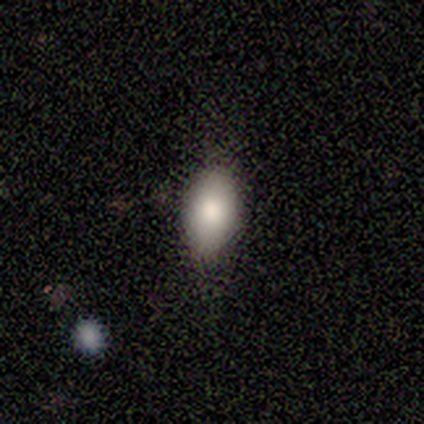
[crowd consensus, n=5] Smooth or featured? smooth (80%)
How rounded? in between (75%)
Merging? none (100%)